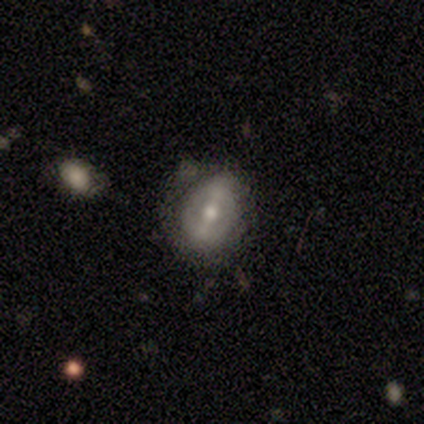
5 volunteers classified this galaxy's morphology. Volunteers were most divided on "how rounded" (2-way tie): round: 50%, in between: 50%, cigar-shaped: 0%. More confident: smooth or featured — smooth (80%); merging — none (60%).